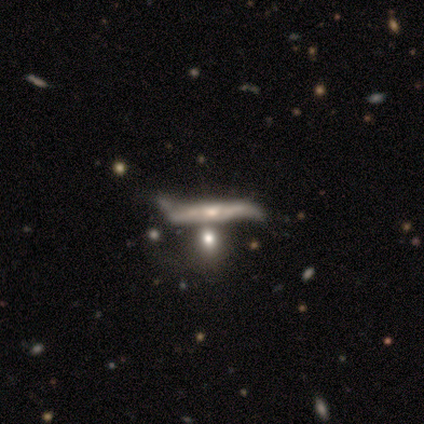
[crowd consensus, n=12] This appears to be a featured or disk galaxy (83%) viewed edge-on (90%) with a rounded central bulge (56%). Merging: minor disturbance (42%).